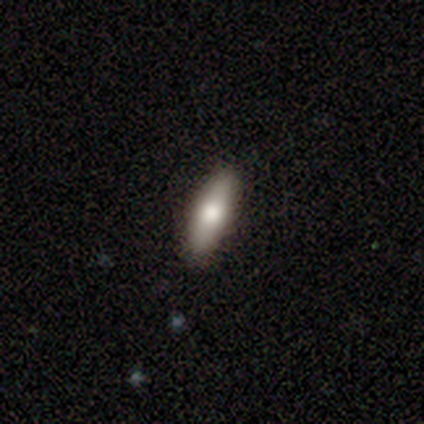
Morphology: type=smooth (74%); roundness=cigar-shaped (55%); merging=none (95%).